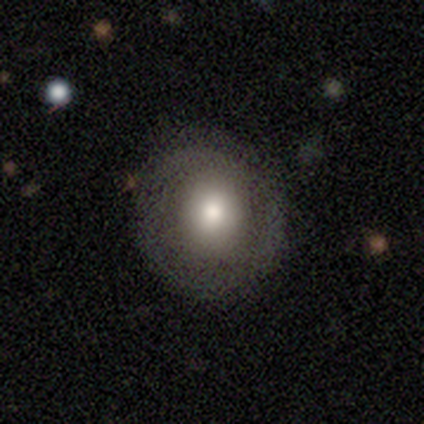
Q: Smooth or featured?
A: smooth (80%); runner-up: featured or disk (20%)
Q: How rounded?
A: round (75%); runner-up: in between (25%)
Q: Merging?
A: none (80%); runner-up: minor disturbance (20%)